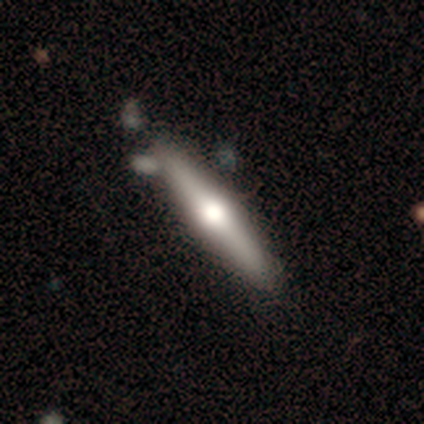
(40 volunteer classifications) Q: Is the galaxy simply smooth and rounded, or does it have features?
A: featured or disk — 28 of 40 (70%).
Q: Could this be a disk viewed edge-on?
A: yes — 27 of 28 (96%).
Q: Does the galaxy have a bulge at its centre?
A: rounded — 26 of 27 (96%).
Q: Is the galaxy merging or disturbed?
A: none — 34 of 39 (87%).